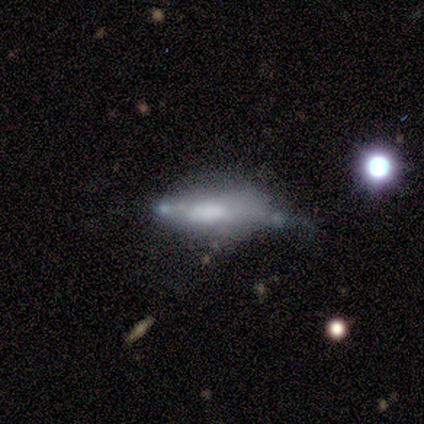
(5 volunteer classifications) A featured or disk galaxy (60%) with no bar (100%), no spiral arms (100%) and no central bulge (67%).

Vote fractions:
- Smooth or featured? featured or disk: 60% / smooth: 40% / star or artifact: 0%
- Edge-on disk? no: 100% / yes: 0%
- Bar? no: 100% / strong: 0% / weak: 0%
- Spiral arms? no: 100% / yes: 0%
- Bulge size? none: 67% / large: 33% / dominant: 0% / moderate: 0% / small: 0%
- Merging? major disturbance: 40% / none: 20% / minor disturbance: 20% / merger: 20%